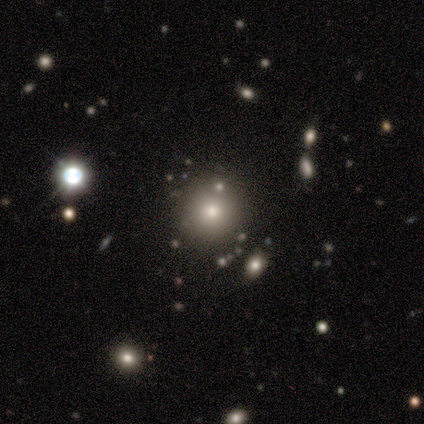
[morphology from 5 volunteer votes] type=smooth (100%); roundness=round (100%); merging=none (80%).